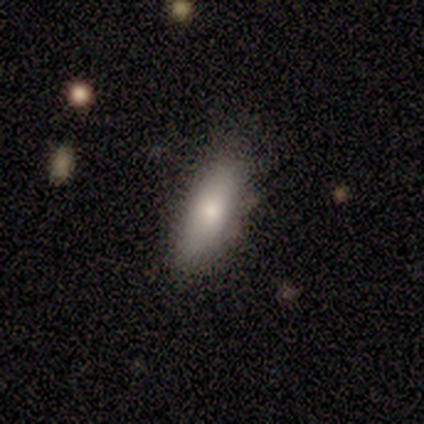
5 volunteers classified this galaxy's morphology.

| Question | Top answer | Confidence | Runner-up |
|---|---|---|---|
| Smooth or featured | smooth | 80% | star or artifact (20%) |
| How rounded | in between | 75% | cigar-shaped (25%) |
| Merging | none | 50% | tied: minor disturbance (50%) |